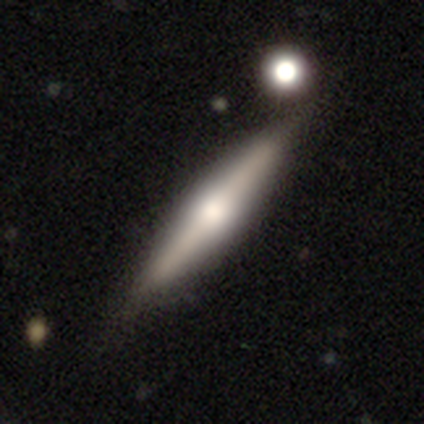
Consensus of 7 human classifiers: smooth-or-featured: smooth: 57% | featured or disk: 43% | star or artifact: 0%
  how-rounded: cigar-shaped: 100% | round: 0% | in between: 0%
  merging: none: 100% | minor disturbance: 0% | major disturbance: 0% | merger: 0%